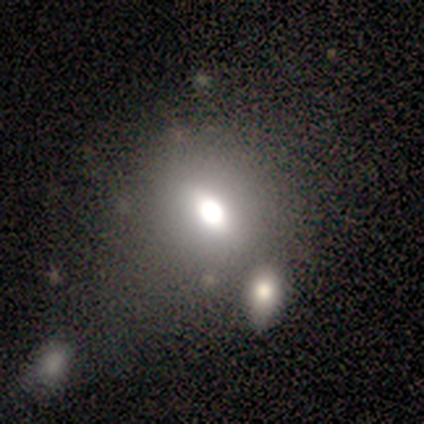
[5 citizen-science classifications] smooth-or-featured: smooth: 80% | featured or disk: 20% | star or artifact: 0%
  how-rounded: round: 50% (tied) | in between: 50% (tied) | cigar-shaped: 0%
  merging: none: 40% (tied) | minor disturbance: 40% (tied) | major disturbance: 20% | merger: 0%